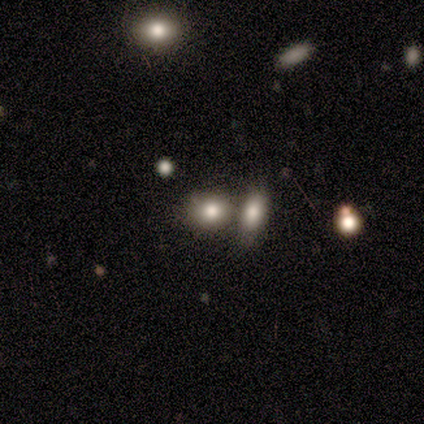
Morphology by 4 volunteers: This appears to be a smooth galaxy with no disk features (50%, tied with featured or disk) that is round (100%). Merging: none (75%).